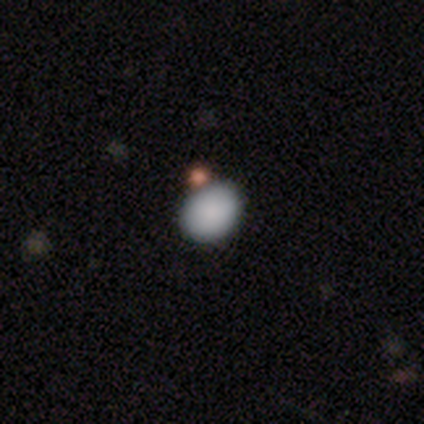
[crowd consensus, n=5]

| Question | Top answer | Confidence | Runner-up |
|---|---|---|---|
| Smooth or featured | smooth | 100% | — |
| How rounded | in between | 80% | round (20%) |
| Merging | none | 80% | merger (20%) |